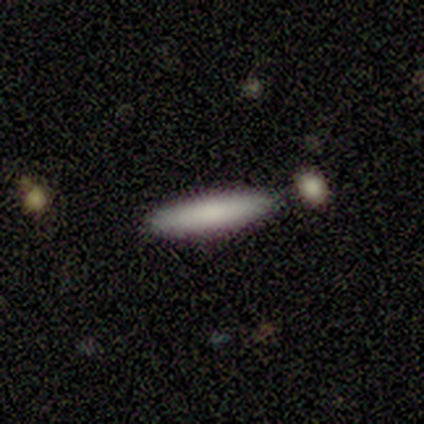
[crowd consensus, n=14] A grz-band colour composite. It shows a smooth galaxy with no disk features (100%) that is cigar-shaped (93%). Merging: none (79%).